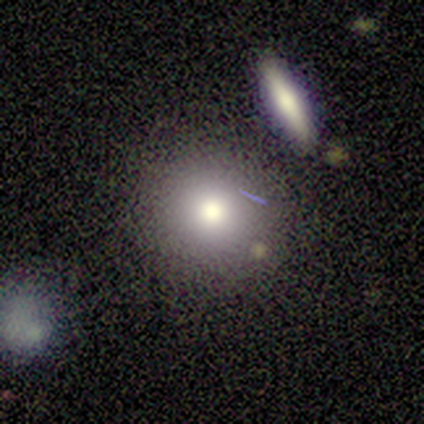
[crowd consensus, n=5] Q: Smooth or featured?
A: smooth (80%); runner-up: star or artifact (20%)
Q: How rounded?
A: round (75%); runner-up: in between (25%)
Q: Merging?
A: none (100%)